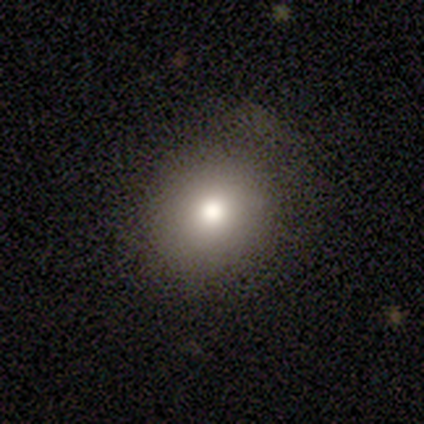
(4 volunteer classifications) This is possibly a smooth galaxy (50%, tied with featured or disk). How rounded: clearly round (100%). Merging: likely none (75%).